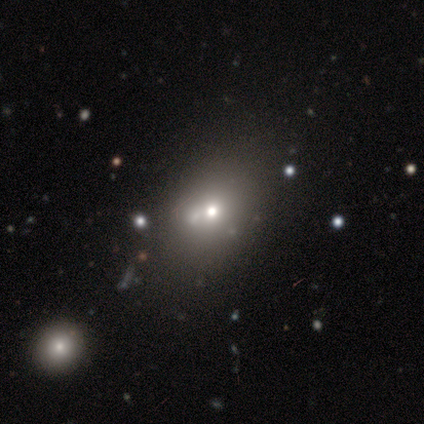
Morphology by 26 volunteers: This appears to be a smooth galaxy with no disk features (77%) that is in between round and cigar-shaped (60%). Merging: none (22%).